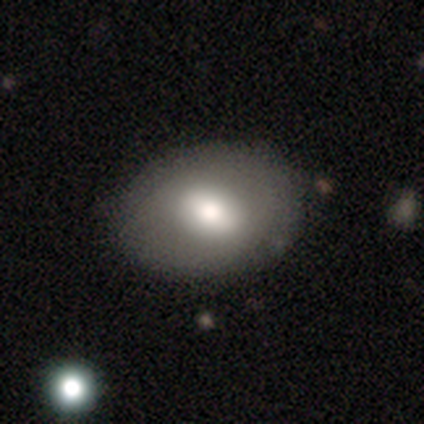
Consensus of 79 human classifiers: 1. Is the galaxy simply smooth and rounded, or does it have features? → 71% smooth, 22% featured or disk, 8% star or artifact.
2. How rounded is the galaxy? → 71% in between, 29% round, 0% cigar-shaped.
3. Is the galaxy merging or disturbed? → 37% none, 10% minor disturbance, 5% merger, 1% major disturbance.